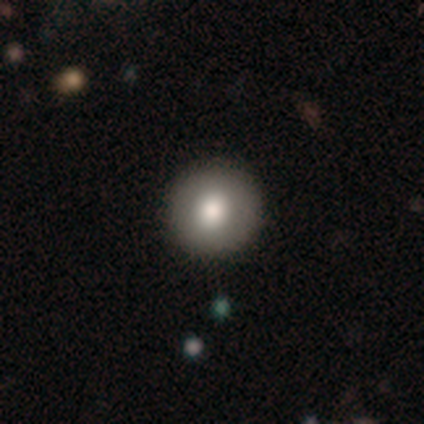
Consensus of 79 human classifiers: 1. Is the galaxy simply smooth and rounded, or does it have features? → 84% smooth, 13% featured or disk, 4% star or artifact.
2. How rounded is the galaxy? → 98% round, 2% in between, 0% cigar-shaped.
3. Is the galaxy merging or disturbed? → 50% none, 1% minor disturbance, 1% merger, 0% major disturbance.